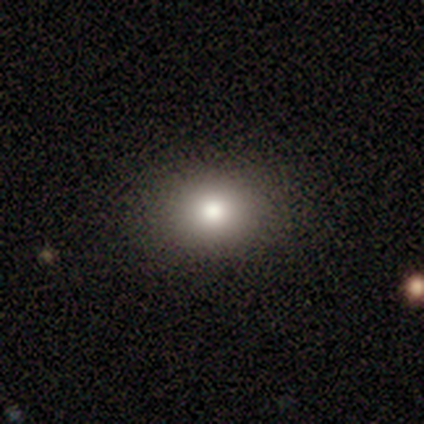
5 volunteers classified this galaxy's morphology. smooth-or-featured: smooth: 60% | featured or disk: 20% | star or artifact: 20%
  how-rounded: round: 67% | in between: 33% | cigar-shaped: 0%
  merging: none: 100% | minor disturbance: 0% | major disturbance: 0% | merger: 0%